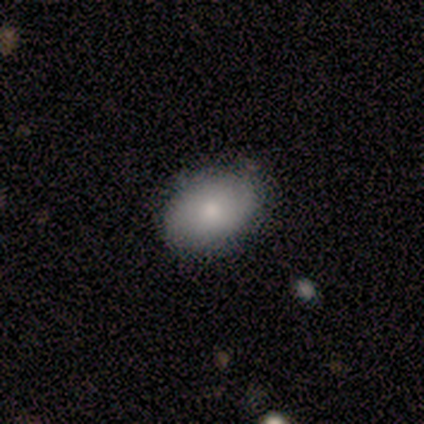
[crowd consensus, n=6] Smooth or featured? 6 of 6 (100%) said smooth. How rounded? 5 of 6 (83%) said in between. Merging? 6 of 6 (100%) said none.